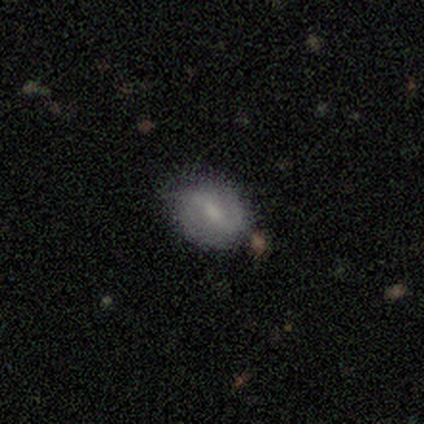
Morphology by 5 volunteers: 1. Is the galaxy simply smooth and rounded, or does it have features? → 60% smooth, 20% featured or disk, 20% star or artifact.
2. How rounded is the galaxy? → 100% round, 0% in between, 0% cigar-shaped.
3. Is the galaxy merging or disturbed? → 75% none, 25% major disturbance, 0% minor disturbance, 0% merger.